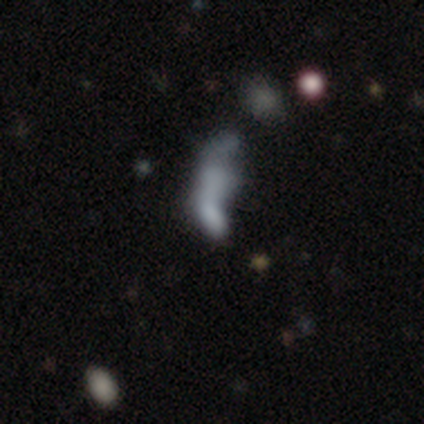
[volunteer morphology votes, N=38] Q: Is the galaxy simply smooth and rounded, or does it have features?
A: smooth — 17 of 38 (45%).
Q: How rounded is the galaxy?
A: in between — 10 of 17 (59%).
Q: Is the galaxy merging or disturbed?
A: merger — 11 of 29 (38%).